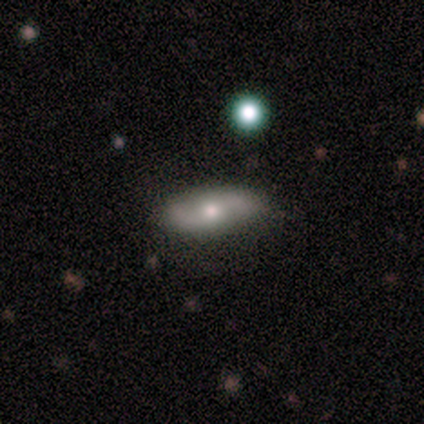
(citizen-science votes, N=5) A smooth galaxy with no disk features (80%) that is in between round and cigar-shaped (75%).

Vote fractions:
- Smooth or featured? smooth: 80% / star or artifact: 20% / featured or disk: 0%
- How rounded? in between: 75% / cigar-shaped: 25% / round: 0%
- Merging? none: 100% / minor disturbance: 0% / major disturbance: 0% / merger: 0%